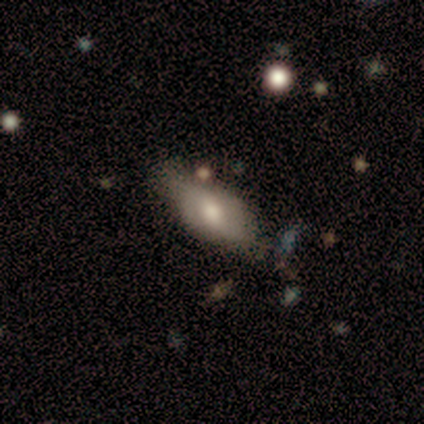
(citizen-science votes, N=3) Smooth or featured: featured or disk — 67% (smooth — 33%)
Edge-on disk: yes — 50% (tied with no — 50%)
Edge-on bulge: rounded — 100%
Merging: none — 67% (minor disturbance — 33%)